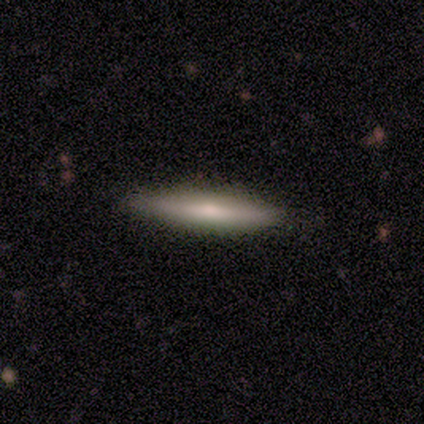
smooth_or_featured: smooth (p=0.80) [alt: featured or disk p=0.20]
how_rounded: cigar-shaped (p=1.00)
merging: none (p=1.00)